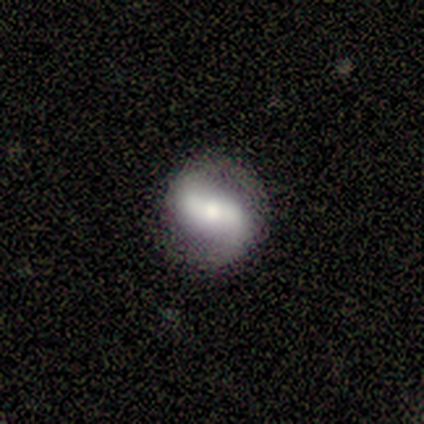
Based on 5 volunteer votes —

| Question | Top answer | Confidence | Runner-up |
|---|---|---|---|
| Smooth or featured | featured or disk | 100% | — |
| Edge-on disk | no | 100% | — |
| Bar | weak | 60% | strong (40%) |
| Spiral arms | yes | 60% | no (40%) |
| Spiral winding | loose | 67% | medium (33%) |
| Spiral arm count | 2 | 100% | — |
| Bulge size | moderate | 80% | small (20%) |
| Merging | none | 80% | minor disturbance (20%) |